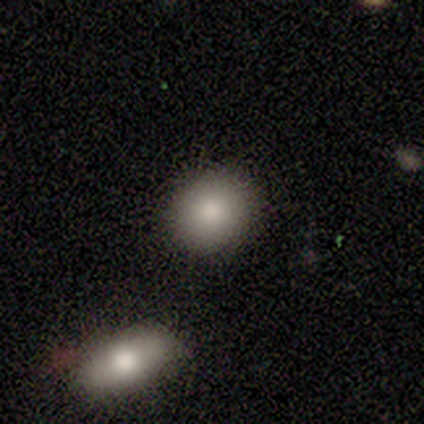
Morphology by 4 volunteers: smooth_or_featured: smooth (p=1.00)
how_rounded: round (p=1.00)
merging: none (p=0.75) [alt: merger p=0.25]